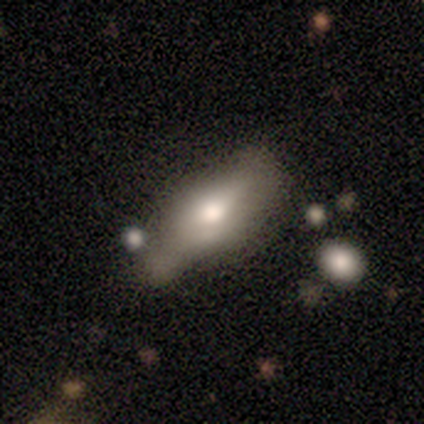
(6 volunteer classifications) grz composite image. It shows a smooth galaxy with no disk features (50%) that is in between round and cigar-shaped (100%). Merging: major disturbance (60%).